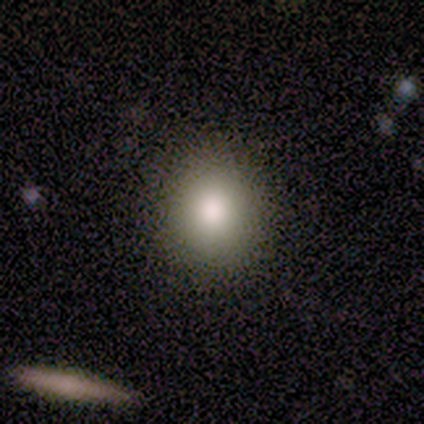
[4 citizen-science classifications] Q: Smooth or featured?
A: smooth (75%); runner-up: star or artifact (25%)
Q: How rounded?
A: round (100%)
Q: Merging?
A: none (100%)